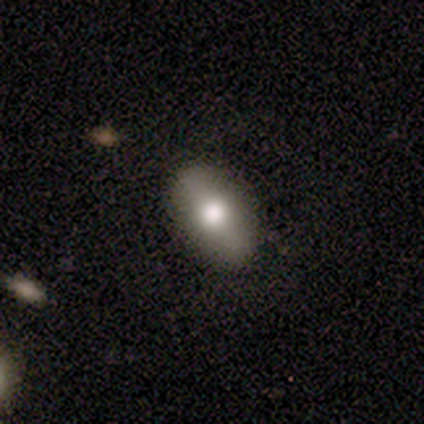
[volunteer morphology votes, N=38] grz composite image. It shows a smooth galaxy with no disk features (71%) that is in between round and cigar-shaped (81%). Merging: none (83%).